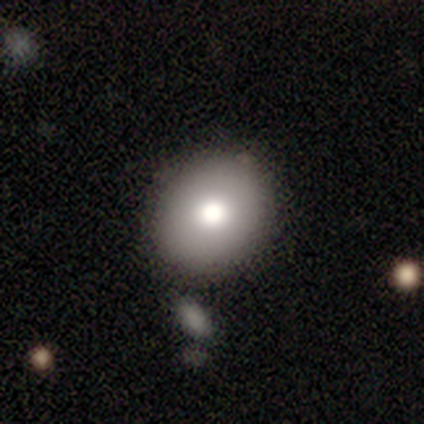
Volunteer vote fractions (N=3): smooth 100%, featured or disk 0%, star or artifact 0%. Down the decision tree: how rounded — round (100%); merging — none (100%).